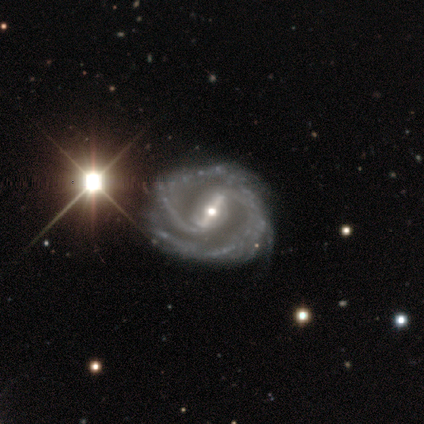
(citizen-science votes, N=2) Morphology: type=featured or disk (100%); edge-on=no (100%); bar=strong (100%); spiral arms=yes (100%); winding=tight (50%, tied with medium); arm count=2 (100%); bulge=moderate (50%, tied with small); merging=none (100%).